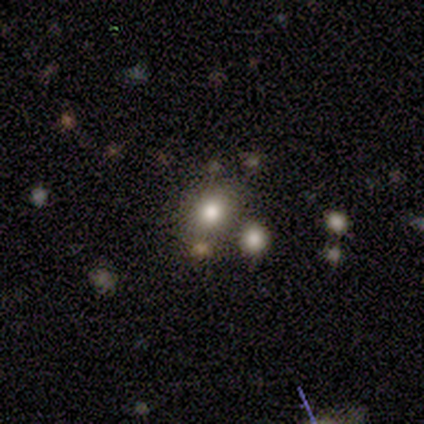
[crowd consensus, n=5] A smooth galaxy with no disk features (60%) that is round (100%). Merging: none (75%).